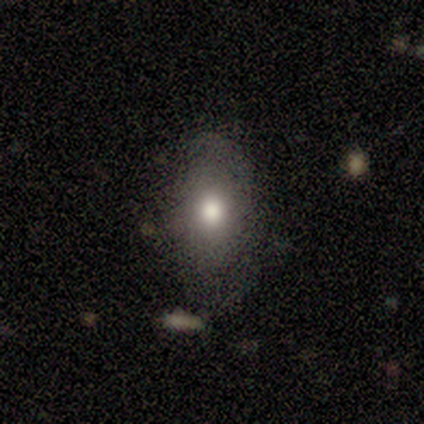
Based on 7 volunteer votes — Volunteers were most divided on "how rounded" (2-way tie): round: 50%, in between: 50%, cigar-shaped: 0%. More confident: smooth or featured — smooth (86%); merging — none (67%).